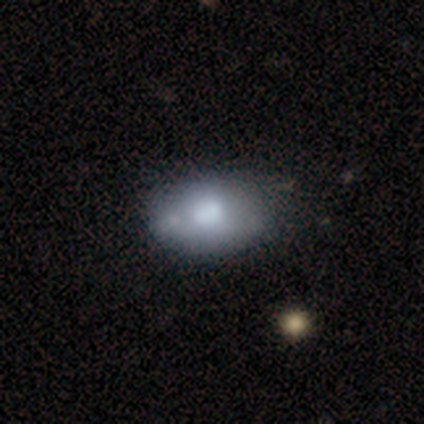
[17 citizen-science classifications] Overall: smooth (65%; featured or disk 35%). How rounded: in between (82%). Merging: none (47%; minor disturbance 41%).